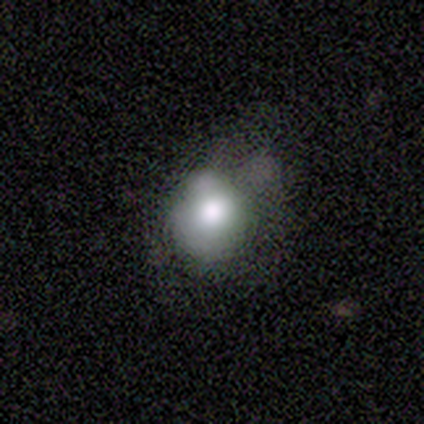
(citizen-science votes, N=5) smooth 60%, featured or disk 40%, star or artifact 0%. Down the decision tree: how rounded — round (67%); merging — minor disturbance (80%).